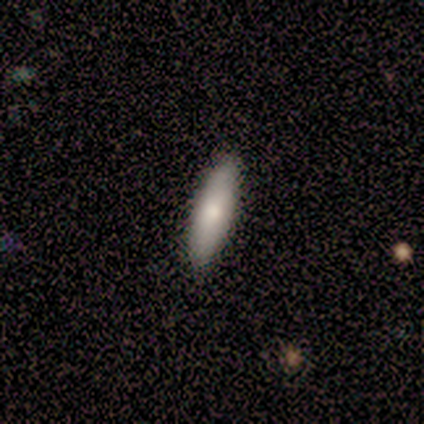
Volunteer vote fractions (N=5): smooth-or-featured: smooth: 80% | featured or disk: 20% | star or artifact: 0%
  how-rounded: in between: 75% | cigar-shaped: 25% | round: 0%
  merging: none: 100% | minor disturbance: 0% | major disturbance: 0% | merger: 0%